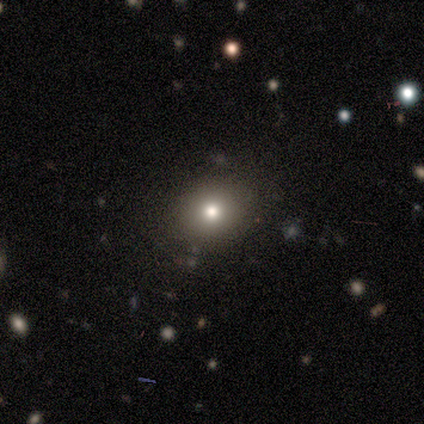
A smooth galaxy with no disk features (79%) that is round (73%).

Vote fractions:
- Smooth or featured? smooth: 79% / star or artifact: 14% / featured or disk: 7%
- How rounded? round: 73% / in between: 27% / cigar-shaped: 0%
- Merging? none: 100% / minor disturbance: 0% / major disturbance: 0% / merger: 0%